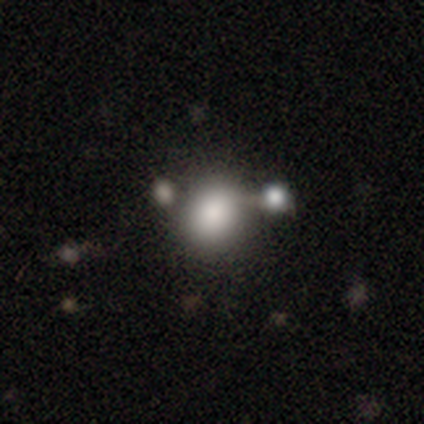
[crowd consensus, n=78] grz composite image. It shows a smooth galaxy with no disk features (87%) that is round (75%). Merging: none (36%).